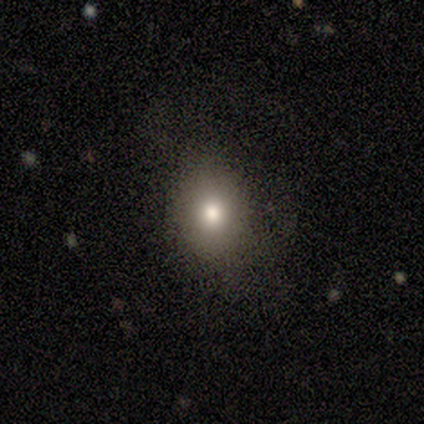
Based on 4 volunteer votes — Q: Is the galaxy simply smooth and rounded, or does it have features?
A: smooth — 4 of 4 (100%).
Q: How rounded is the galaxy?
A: round — 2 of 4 (50%, tied with in between).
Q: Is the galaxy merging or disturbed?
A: none — 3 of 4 (75%).